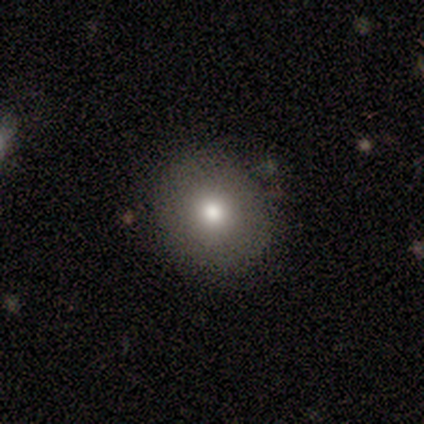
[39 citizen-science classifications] Smooth or featured: smooth — 79% (star or artifact — 13%)
How rounded: round — 97% (in between — 3%)
Merging: none — 76% (minor disturbance — 21%)